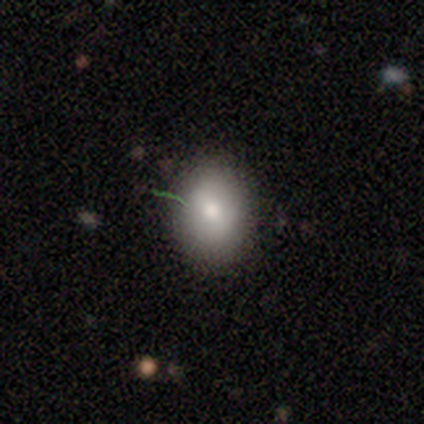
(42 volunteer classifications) smooth-or-featured: smooth: 81% | featured or disk: 14% | star or artifact: 5%
  how-rounded: in between: 71% | round: 29% | cigar-shaped: 0%
  merging: none: 88% | minor disturbance: 8% | merger: 5% | major disturbance: 0%